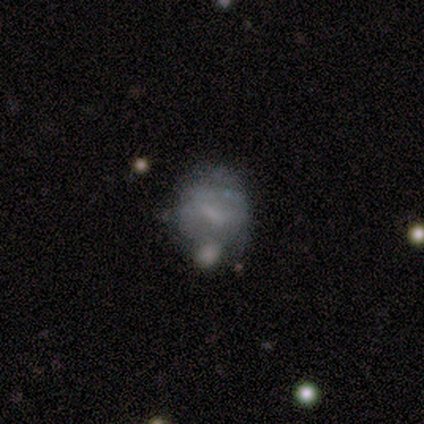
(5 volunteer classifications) Smooth or featured? smooth (60%)
How rounded? round (67%)
Merging? major disturbance (60%)